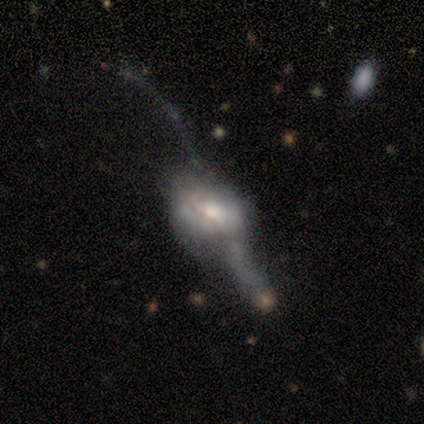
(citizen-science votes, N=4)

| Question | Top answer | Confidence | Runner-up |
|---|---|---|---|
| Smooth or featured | featured or disk | 50% | smooth (25%) |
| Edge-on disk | no | 100% | — |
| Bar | weak | 50% | tied: no (50%) |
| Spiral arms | yes | 50% | tied: no (50%) |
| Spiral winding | loose | 100% | — |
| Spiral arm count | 2 | 100% | — |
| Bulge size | moderate | 50% | tied: small (50%) |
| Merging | minor disturbance | 33% | tied: major disturbance (33%), merger (33%) |